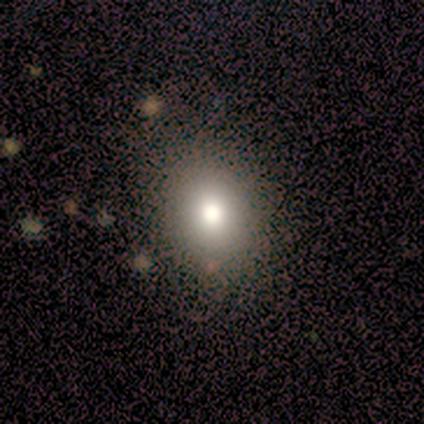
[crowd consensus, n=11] A smooth galaxy with no disk features (100%) that is in between round and cigar-shaped (73%).

Vote fractions:
- Smooth or featured? smooth: 100% / featured or disk: 0% / star or artifact: 0%
- How rounded? in between: 73% / round: 27% / cigar-shaped: 0%
- Merging? none: 82% / minor disturbance: 18% / major disturbance: 0% / merger: 0%